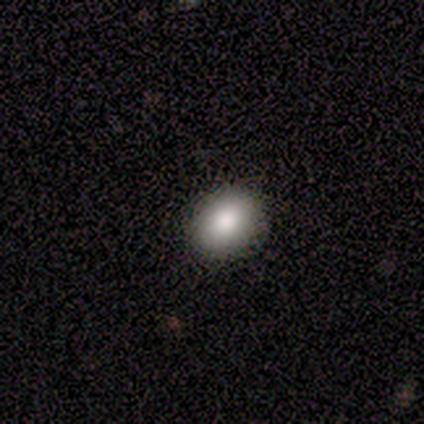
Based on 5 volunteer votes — Overall: smooth (60%; featured or disk 40%). How rounded: round (67%; in between 33%). Merging: none (80%).